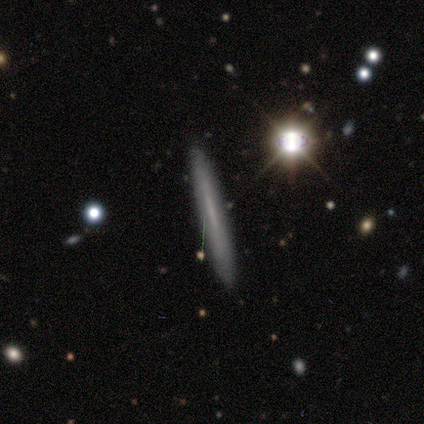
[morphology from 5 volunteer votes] Overall: smooth (60%; featured or disk 40%). How rounded: cigar-shaped (100%). Merging: none (100%).